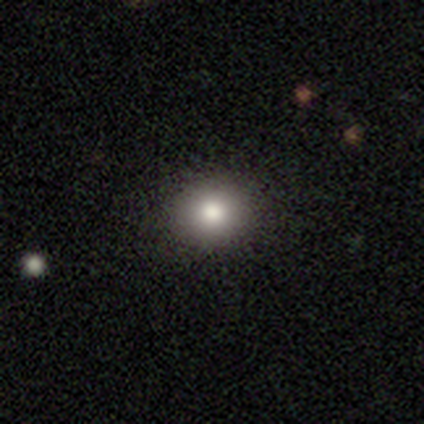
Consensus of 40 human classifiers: A smooth galaxy with no disk features (75%) that is round (83%). Merging: none (88%).